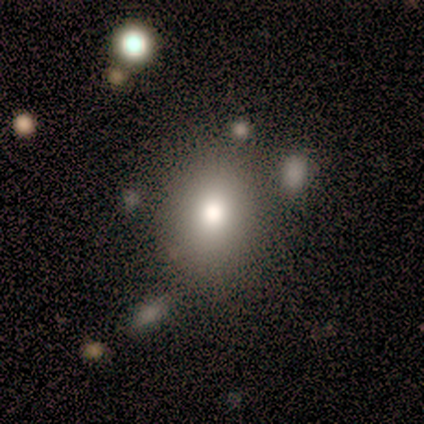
Morphology: type=smooth (82%); roundness=round (79%); merging=none (81%).